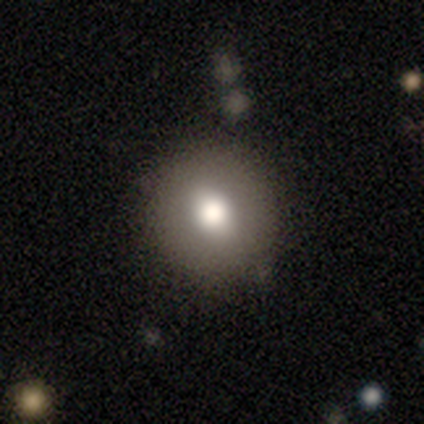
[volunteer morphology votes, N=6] Overall: smooth (83%). How rounded: round (80%). Merging: none (83%).